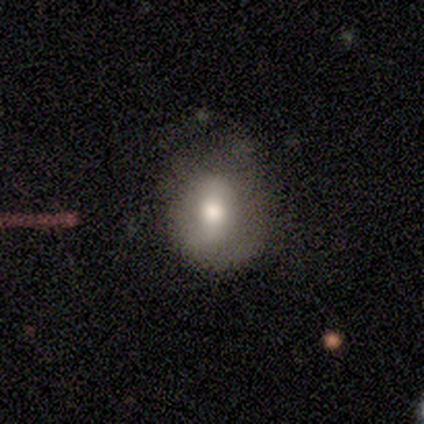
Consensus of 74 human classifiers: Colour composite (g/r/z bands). It shows a smooth galaxy with no disk features (68%) that is round (54%). Merging: none (35%).